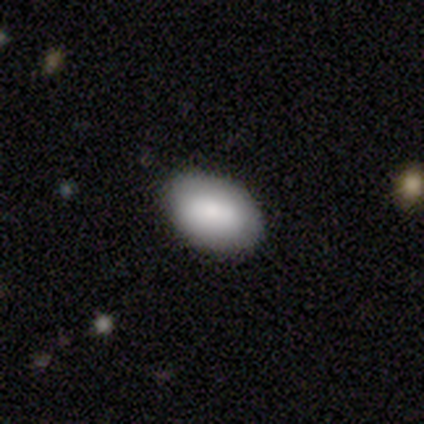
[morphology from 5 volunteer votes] Smooth or featured: smooth — 100%
How rounded: in between — 80% (round — 20%)
Merging: none — 100%